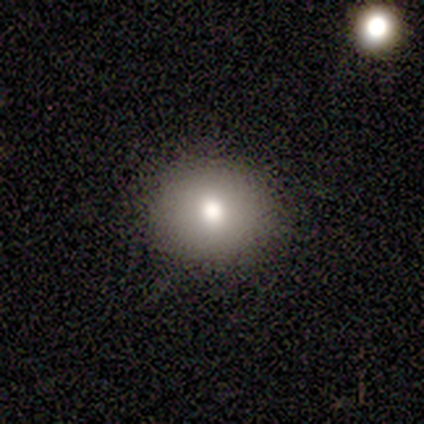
Overall: smooth (80%). How rounded: round (100%). Merging: none (75%).